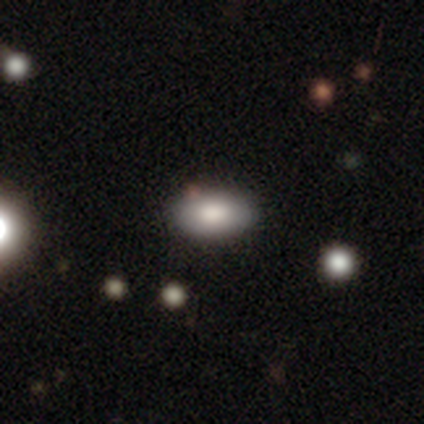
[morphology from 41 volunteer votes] Overall: smooth (93%). How rounded: in between (100%). Merging: none (59%).